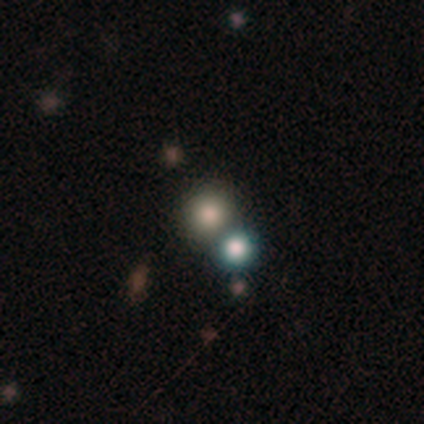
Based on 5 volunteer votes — This is clearly a smooth galaxy (100%). How rounded: clearly round (100%). Merging: likely none (60%).